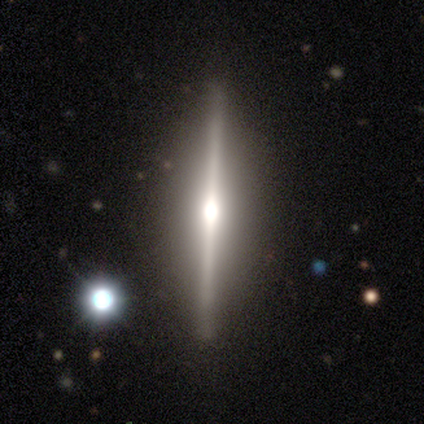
Volunteers were most divided on "smooth or featured": featured or disk: 80%, smooth: 20%, star or artifact: 0%. More confident: edge-on disk — yes (100%); edge-on bulge — rounded (100%); merging — none (100%).